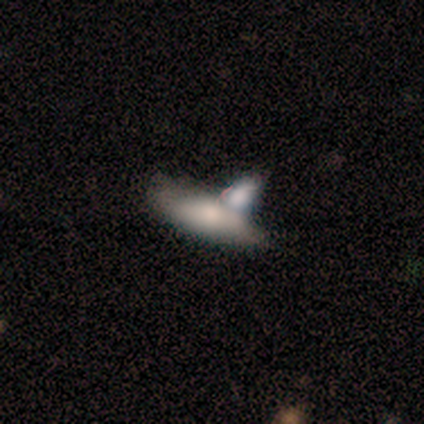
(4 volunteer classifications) Overall: smooth (75%). How rounded: in between (67%; cigar-shaped 33%). Merging: merger (100%).